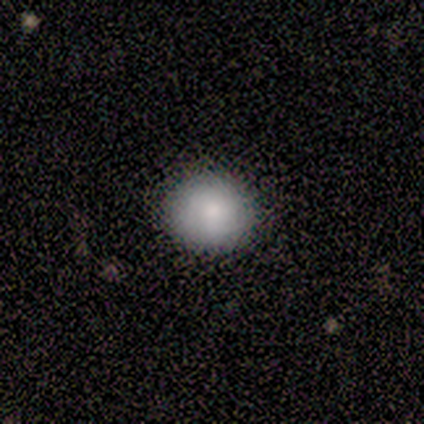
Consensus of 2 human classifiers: smooth_or_featured: smooth (p=1.00)
how_rounded: round (p=1.00)
merging: none (p=0.50) [tied with: minor disturbance p=0.50]